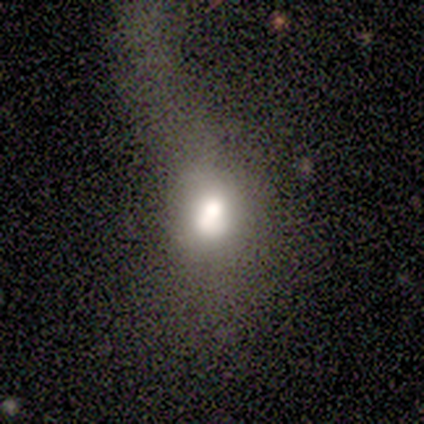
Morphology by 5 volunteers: smooth 60%, star or artifact 40%, featured or disk 0%. Down the decision tree: how rounded — in between (67%); merging — major disturbance (67%).